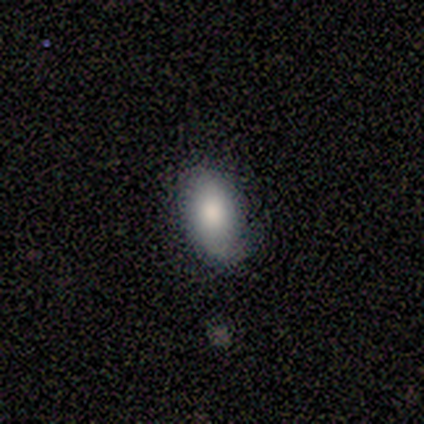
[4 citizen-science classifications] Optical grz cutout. It shows a smooth galaxy with no disk features (75%) that is cigar-shaped (67%). Merging: none (50%).